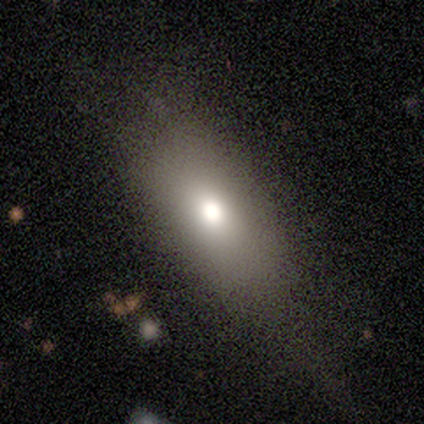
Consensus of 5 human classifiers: Q: Smooth or featured?
A: smooth (40%); tied with: star or artifact (40%)
Q: How rounded?
A: in between (100%)
Q: Merging?
A: none (67%); runner-up: major disturbance (33%)